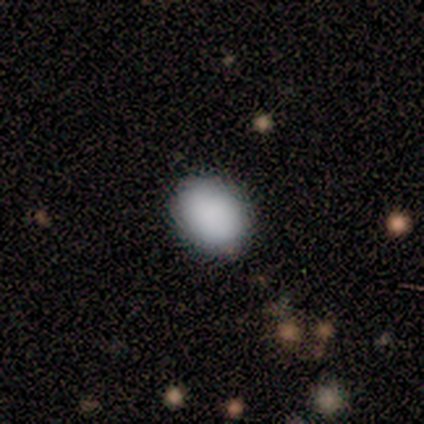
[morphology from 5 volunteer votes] This is clearly a smooth galaxy (100%). How rounded: likely in between (60%). Merging: clearly none (100%).